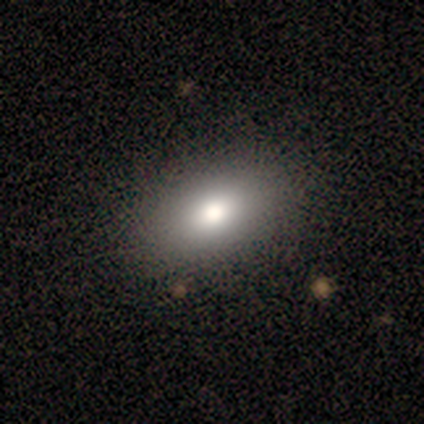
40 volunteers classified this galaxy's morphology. type=smooth (72%); roundness=in between (93%); merging=none (55%).